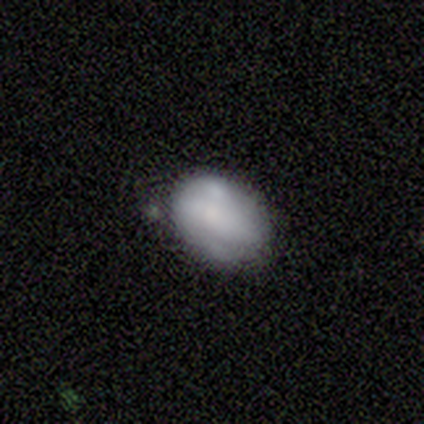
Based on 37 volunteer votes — smooth 62%, featured or disk 35%, star or artifact 3%. Down the decision tree: how rounded — in between (78%); merging — none (56%).